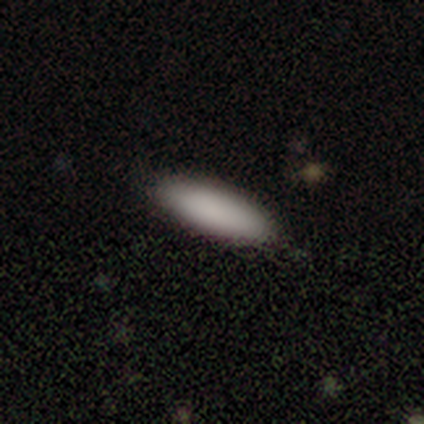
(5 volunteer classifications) Smooth or featured? 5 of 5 (100%) said smooth. How rounded? 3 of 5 (60%) said in between. Merging? 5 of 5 (100%) said none.